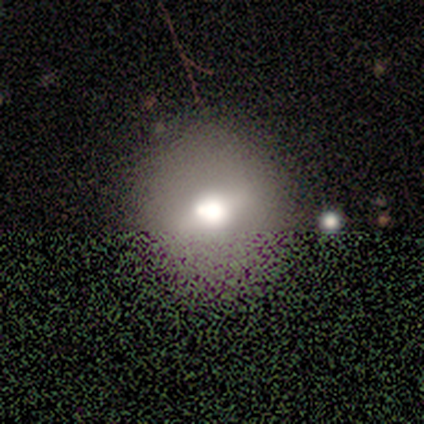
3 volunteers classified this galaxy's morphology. smooth-or-featured: smooth: 67% | featured or disk: 33% | star or artifact: 0%
  how-rounded: round: 100% | in between: 0% | cigar-shaped: 0%
  merging: none: 67% | minor disturbance: 33% | major disturbance: 0% | merger: 0%